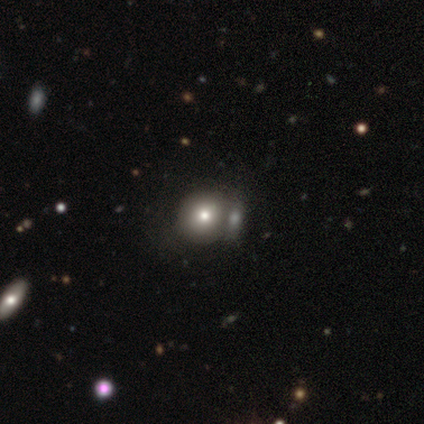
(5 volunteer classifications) Smooth or featured? smooth (40%, tied with star or artifact)
How rounded? round (100%)
Merging? none (67%)